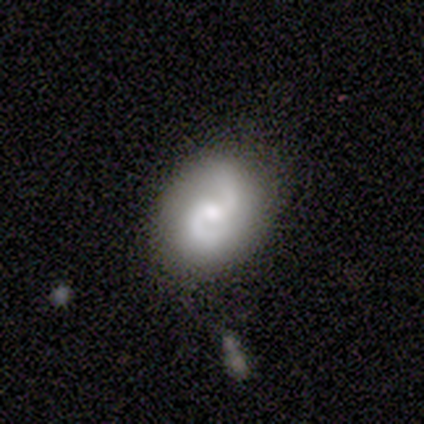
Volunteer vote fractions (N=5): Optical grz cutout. It shows a featured or disk galaxy (60%) with no bar (100%), 2 (100%) medium (67%) spiral arms (100%) and a moderate central bulge (67%). Merging: none (60%).